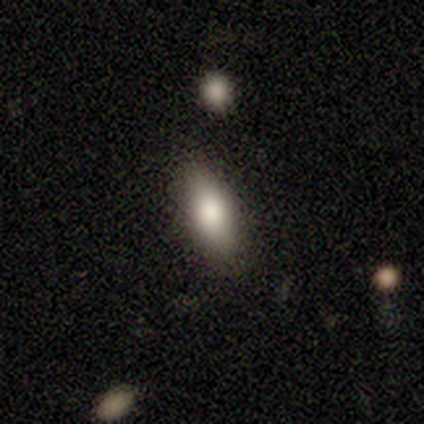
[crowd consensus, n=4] Smooth or featured? smooth (100%)
How rounded? in between (100%)
Merging? none (100%)